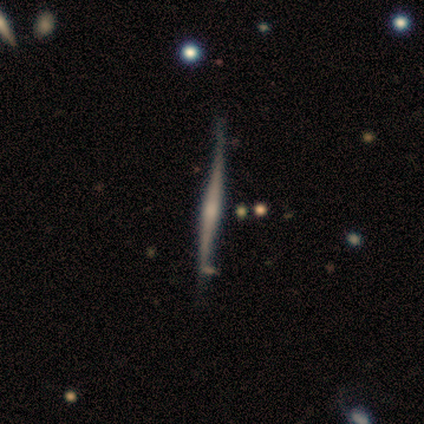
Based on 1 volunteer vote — Smooth or featured: featured or disk — 100%
Edge-on disk: yes — 100%
Edge-on bulge: none — 100%
Merging: none — 100%